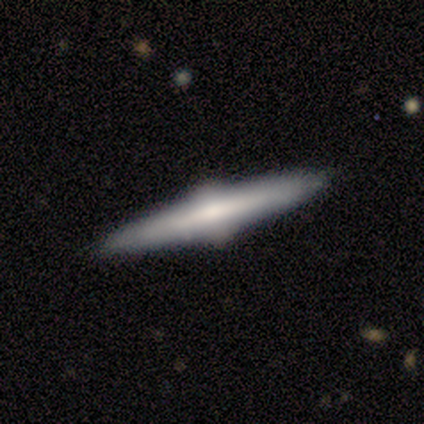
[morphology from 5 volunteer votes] smooth-or-featured: featured or disk: 60% | smooth: 40% | star or artifact: 0%
  disk-edge-on: yes: 100% | no: 0%
    edge-on-bulge: rounded: 100% | boxy: 0% | none: 0%
  merging: none: 100% | minor disturbance: 0% | major disturbance: 0% | merger: 0%